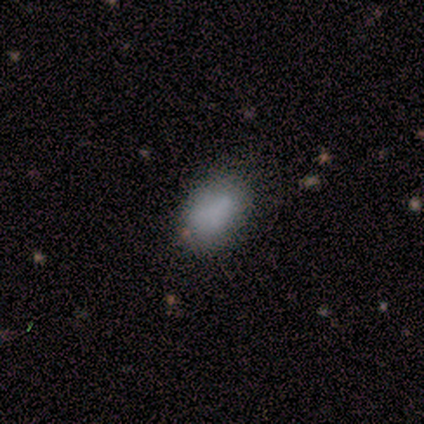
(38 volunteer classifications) This is likely a smooth galaxy (63%). How rounded: clearly in between (96%). Merging: clearly none (83%).